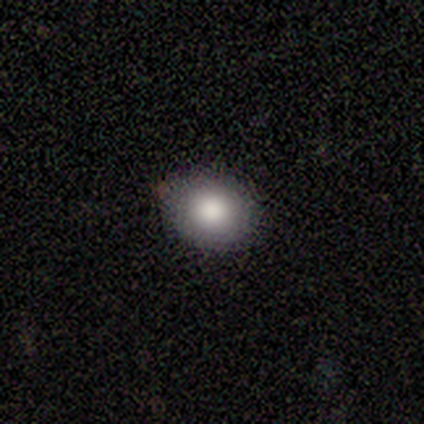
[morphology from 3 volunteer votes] smooth 100%, featured or disk 0%, star or artifact 0%. Down the decision tree: how rounded — in between (67%); merging — none (100%).